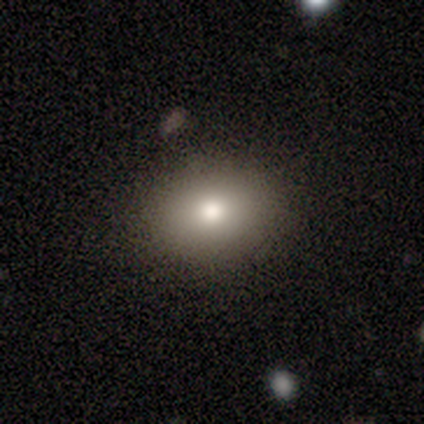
smooth_or_featured: smooth (p=0.78) [alt: star or artifact p=0.12]
how_rounded: in between (p=0.55) [alt: round p=0.43]
merging: none (p=0.92) [alt: minor disturbance p=0.04]